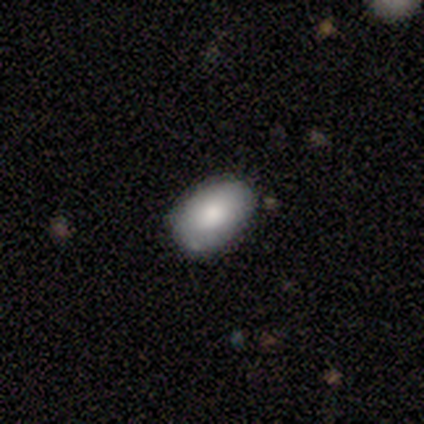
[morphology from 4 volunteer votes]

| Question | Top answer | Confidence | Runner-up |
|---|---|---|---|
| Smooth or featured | smooth | 75% | featured or disk (25%) |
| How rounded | in between | 100% | — |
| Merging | none | 75% | minor disturbance (25%) |